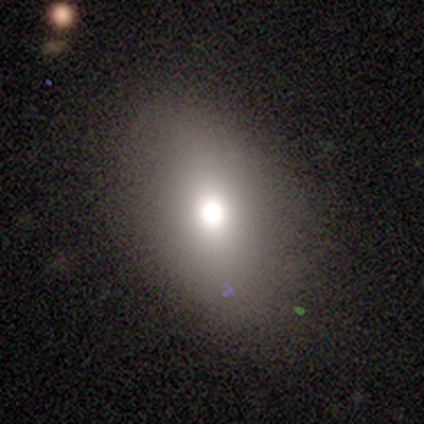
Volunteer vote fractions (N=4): Smooth or featured? smooth (75%)
How rounded? in between (67%)
Merging? none (75%)